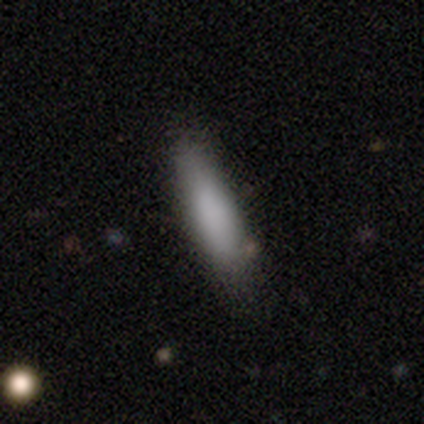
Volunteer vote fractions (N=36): Smooth or featured? 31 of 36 (86%) said smooth. How rounded? 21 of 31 (68%) said cigar-shaped. Merging? 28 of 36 (78%) said none.